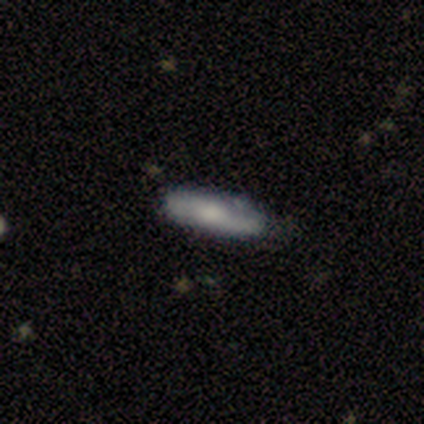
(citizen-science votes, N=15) Volunteers were most divided on "smooth or featured": smooth: 73%, featured or disk: 27%, star or artifact: 0%. More confident: merging — none (93%); how rounded — cigar-shaped (82%).